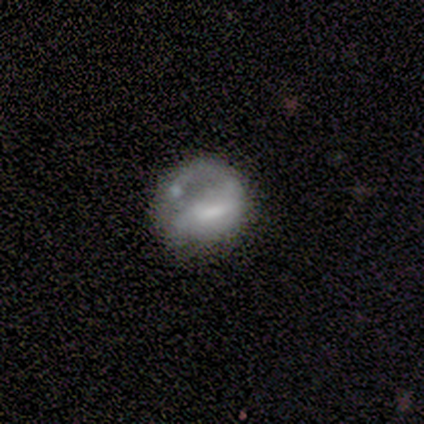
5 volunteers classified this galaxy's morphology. Smooth or featured? smooth (60%)
How rounded? round (100%)
Merging? none (25%, tied with minor disturbance, major disturbance and merger)